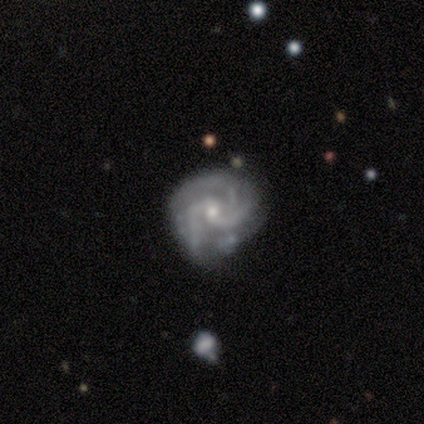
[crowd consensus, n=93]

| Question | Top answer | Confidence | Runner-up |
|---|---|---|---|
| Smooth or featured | featured or disk | 97% | star or artifact (2%) |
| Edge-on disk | no | 98% | yes (2%) |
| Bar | no | 61% | weak (32%) |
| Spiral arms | yes | 100% | — |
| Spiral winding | tight | 58% | medium (36%) |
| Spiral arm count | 3 | 73% | 2 (20%) |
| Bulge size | small | 72% | moderate (25%) |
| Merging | none | 62% | minor disturbance (26%) |